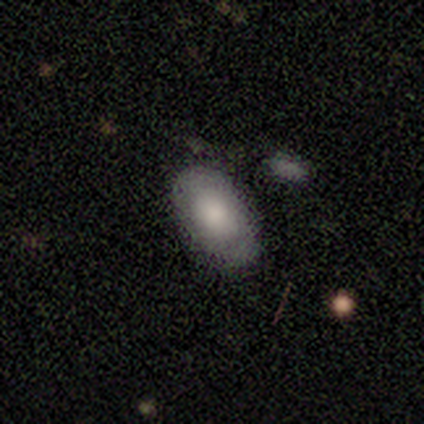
This is likely a smooth galaxy (71%). How rounded: clearly in between (100%). Merging: clearly none (86%).